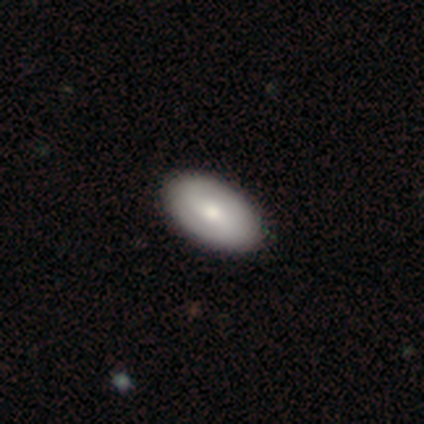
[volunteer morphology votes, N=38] Q: Smooth or featured?
A: smooth (66%); runner-up: featured or disk (32%)
Q: How rounded?
A: in between (92%); runner-up: round (8%)
Q: Merging?
A: none (70%); runner-up: minor disturbance (3%)